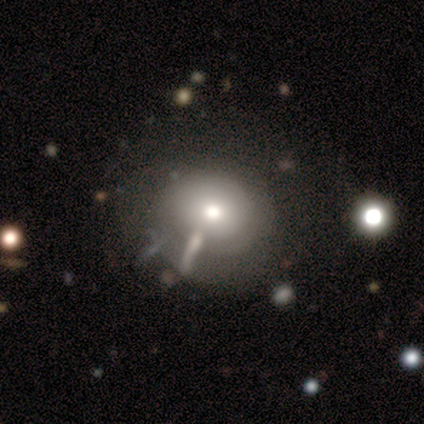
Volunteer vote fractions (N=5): A smooth galaxy with no disk features (80%) that is round (50%, tied with in between).

Vote fractions:
- Smooth or featured? smooth: 80% / featured or disk: 20% / star or artifact: 0%
- How rounded? round: 50% (tied) / in between: 50% (tied) / cigar-shaped: 0%
- Merging? none: 80% / minor disturbance: 20% / major disturbance: 0% / merger: 0%